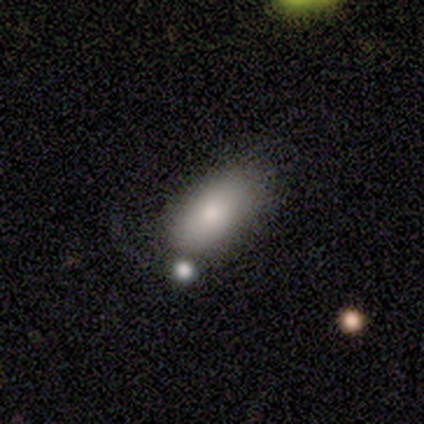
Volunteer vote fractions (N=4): A smooth galaxy with no disk features (100%) that is in between round and cigar-shaped (75%).

Vote fractions:
- Smooth or featured? smooth: 100% / featured or disk: 0% / star or artifact: 0%
- How rounded? in between: 75% / cigar-shaped: 25% / round: 0%
- Merging? none: 100% / minor disturbance: 0% / major disturbance: 0% / merger: 0%